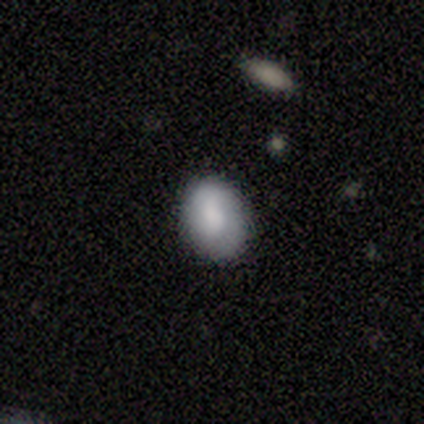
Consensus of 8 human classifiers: Overall: smooth (75%). How rounded: in between (67%; round 33%). Merging: none (86%).